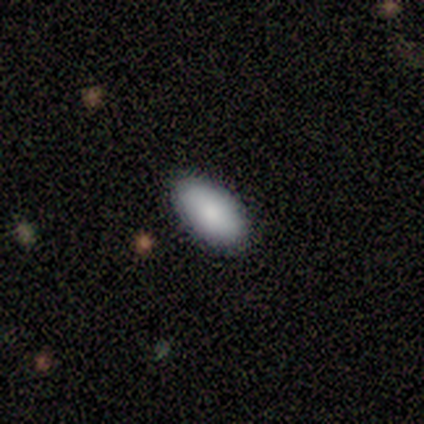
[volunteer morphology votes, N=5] This appears to be a smooth galaxy with no disk features (80%) that is in between round and cigar-shaped (100%). Merging: none (100%).